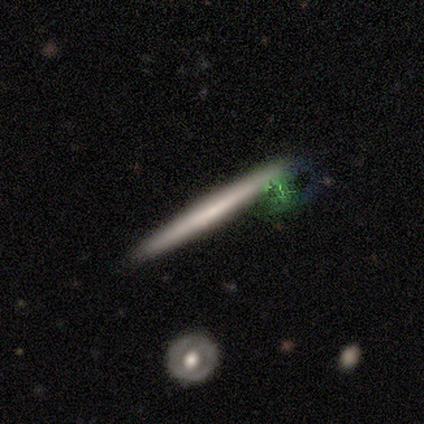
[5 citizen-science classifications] This appears to be a featured or disk galaxy (60%) viewed edge-on (100%) with no central bulge (67%). Merging: none (80%).